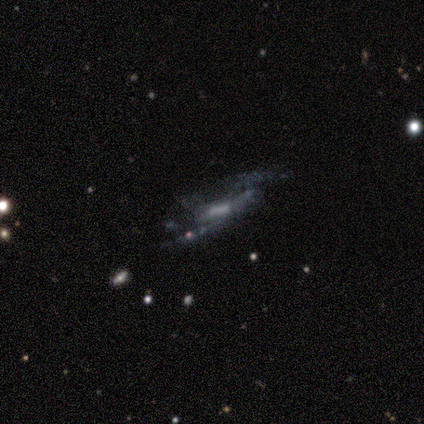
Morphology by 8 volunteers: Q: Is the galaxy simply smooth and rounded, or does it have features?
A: featured or disk — 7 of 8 (88%).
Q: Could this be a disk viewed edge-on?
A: no — 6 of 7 (86%).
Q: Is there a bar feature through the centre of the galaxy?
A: strong — 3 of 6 (50%, tied with weak).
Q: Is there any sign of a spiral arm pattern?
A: yes — 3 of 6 (50%, tied with no).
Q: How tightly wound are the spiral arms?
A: loose — 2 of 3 (67%).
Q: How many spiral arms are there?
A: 2 — 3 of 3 (100%).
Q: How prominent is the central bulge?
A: moderate — 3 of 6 (50%, tied with none).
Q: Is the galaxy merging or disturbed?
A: none — 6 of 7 (86%).